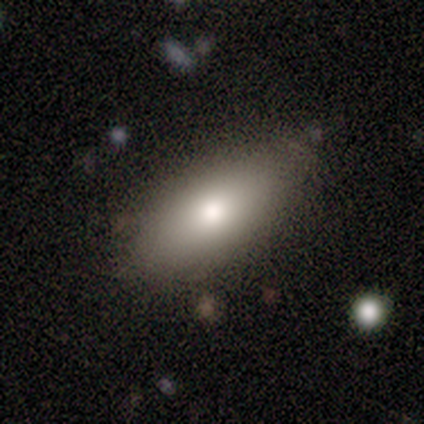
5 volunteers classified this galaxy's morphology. A smooth galaxy with no disk features (40%, tied with featured or disk) that is round (50%, tied with in between).

Vote fractions:
- Smooth or featured? smooth: 40% (tied) / featured or disk: 40% (tied) / star or artifact: 20%
- How rounded? round: 50% (tied) / in between: 50% (tied) / cigar-shaped: 0%
- Merging? none: 75% / major disturbance: 25% / minor disturbance: 0% / merger: 0%